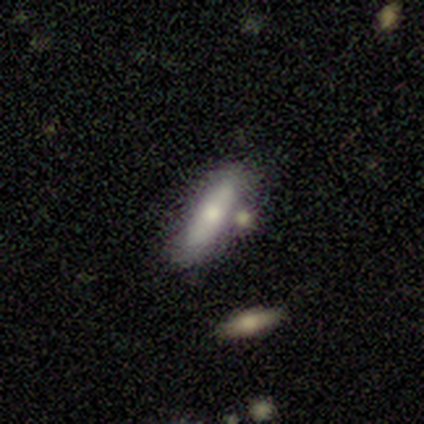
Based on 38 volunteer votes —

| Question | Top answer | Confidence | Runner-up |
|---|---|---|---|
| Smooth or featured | smooth | 55% | featured or disk (42%) |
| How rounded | cigar-shaped | 52% | in between (48%) |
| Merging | none | 49% | minor disturbance (30%) |